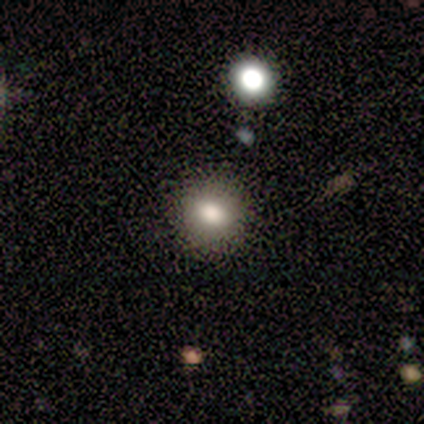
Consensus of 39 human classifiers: A smooth galaxy with no disk features (67%) that is round (62%). Merging: none (97%).